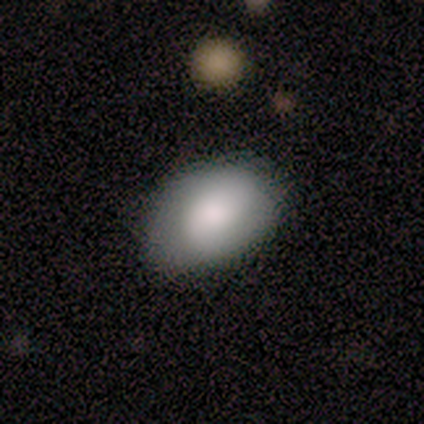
Smooth or featured?
  - smooth: 86% *
  - featured or disk: 14%
  - star or artifact: 0%
How rounded?
  - round: 50% * (tied)
  - in between: 50% * (tied)
  - cigar-shaped: 0%
Merging?
  - none: 71% *
  - minor disturbance: 29%
  - major disturbance: 0%
  - merger: 0%